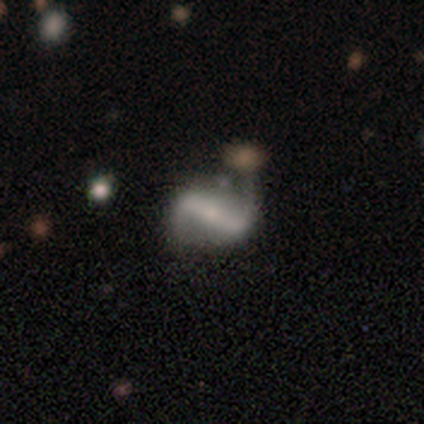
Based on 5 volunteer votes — Q: Smooth or featured?
A: featured or disk (100%)
Q: Edge-on disk?
A: no (80%); runner-up: yes (20%)
Q: Bar?
A: strong (75%); runner-up: weak (25%)
Q: Spiral arms?
A: yes (100%)
Q: Spiral winding?
A: loose (75%); runner-up: tight (25%)
Q: Spiral arm count?
A: 2 (50%); runner-up: 1 (25%)
Q: Bulge size?
A: small (100%)
Q: Merging?
A: none (40%); tied with: minor disturbance (40%)